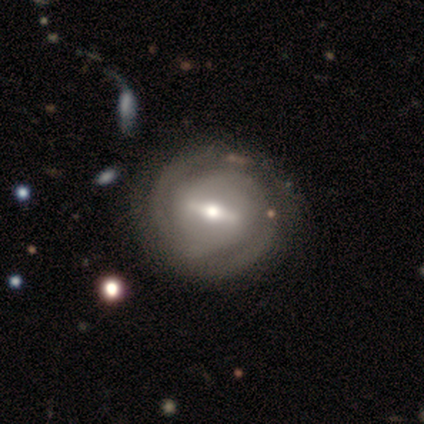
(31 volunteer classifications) smooth_or_featured: featured or disk (p=0.90) [alt: smooth p=0.06]
disk_edge_on: no (p=0.89) [alt: yes p=0.11]
bar: strong (p=0.56) [alt: weak p=0.40]
has_spiral_arms: yes (p=0.88) [alt: no p=0.12]
spiral_winding: tight (p=0.82) [alt: medium p=0.09]
spiral_arm_count: 2 (p=0.82) [alt: can't tell p=0.14]
bulge_size: moderate (p=0.60) [alt: small p=0.20]
merging: none (p=0.73) [alt: minor disturbance p=0.17]